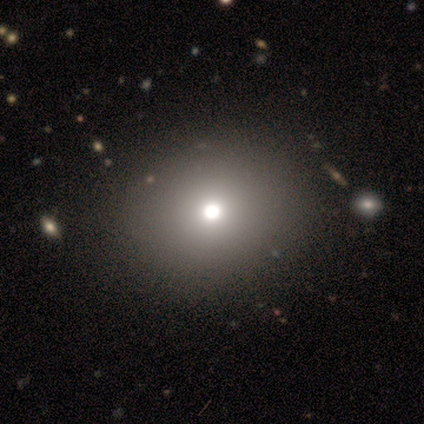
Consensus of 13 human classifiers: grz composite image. It shows a smooth galaxy with no disk features (77%) that is round (50%, tied with in between). Merging: none (90%).